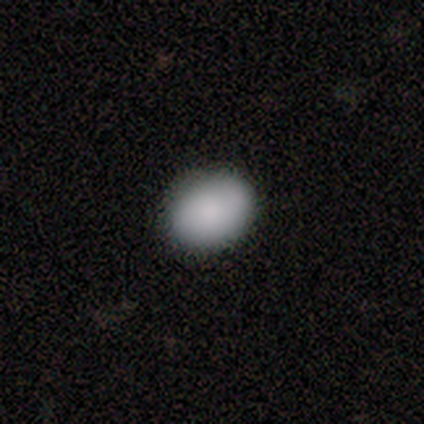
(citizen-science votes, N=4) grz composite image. It shows a smooth galaxy with no disk features (100%) that is in between round and cigar-shaped (100%). Merging: none (75%).